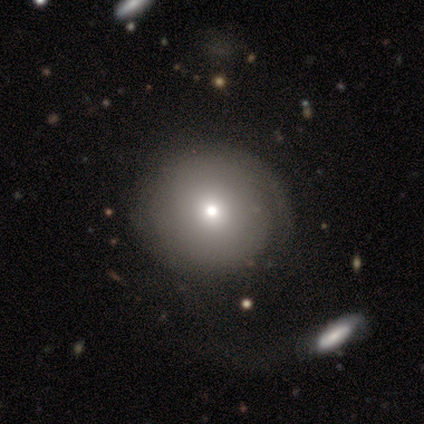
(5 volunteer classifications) Smooth or featured: smooth — 80% (featured or disk — 20%)
How rounded: round — 100%
Merging: none — 60% (merger — 40%)